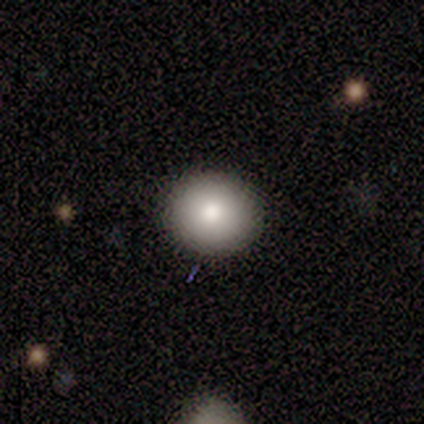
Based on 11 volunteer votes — smooth 82%, featured or disk 9%, star or artifact 9%. Down the decision tree: how rounded — round (89%); merging — none (80%).